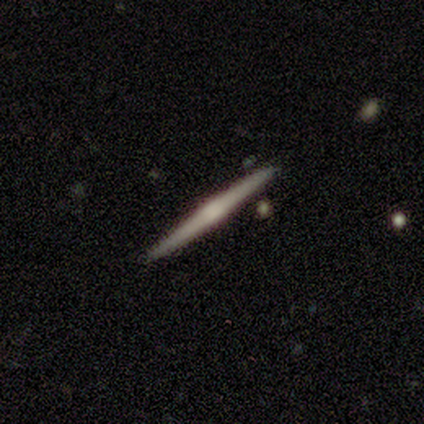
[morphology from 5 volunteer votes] Smooth or featured? featured or disk (100%)
Edge-on disk? yes (100%)
Edge-on bulge? boxy (60%)
Merging? none (100%)